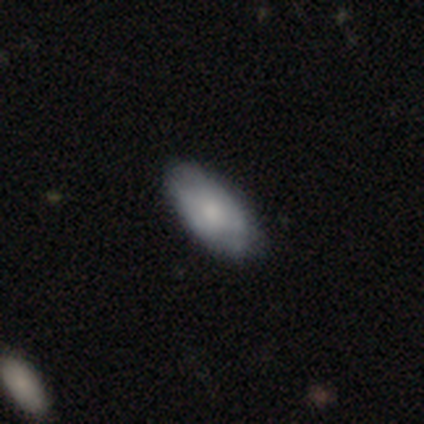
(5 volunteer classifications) Volunteers were most divided on "smooth or featured": smooth: 60%, featured or disk: 40%, star or artifact: 0%. More confident: how rounded — in between (100%); merging — none (80%).